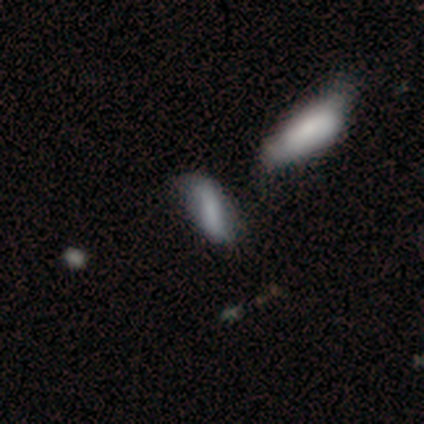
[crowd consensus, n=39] A smooth galaxy with no disk features (62%) that is in between round and cigar-shaped (75%). Merging: none (52%).